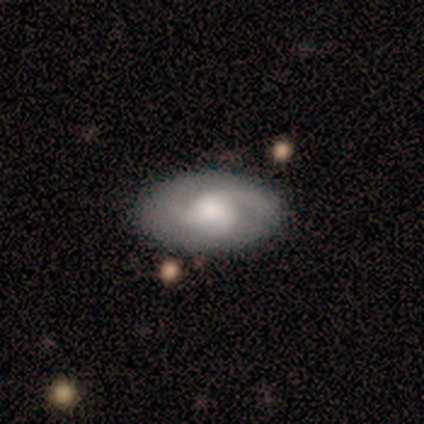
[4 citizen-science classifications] Q: Smooth or featured?
A: featured or disk (75%); runner-up: smooth (25%)
Q: Edge-on disk?
A: no (100%)
Q: Bar?
A: no (67%); runner-up: weak (33%)
Q: Spiral arms?
A: yes (100%)
Q: Spiral winding?
A: tight (33%); tied with: medium (33%); loose (33%)
Q: Spiral arm count?
A: 2 (100%)
Q: Bulge size?
A: moderate (67%); runner-up: large (33%)
Q: Merging?
A: none (75%); runner-up: minor disturbance (25%)